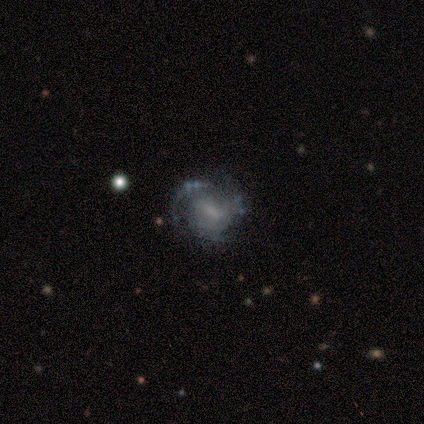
Smooth or featured: featured or disk — 100%
Edge-on disk: no — 100%
Bar: no — 80% (strong — 20%)
Spiral arms: yes — 60% (no — 40%)
Spiral winding: medium — 100%
Spiral arm count: can't tell — 67% (3 — 33%)
Bulge size: moderate — 40% (tied with none — 40%)
Merging: none — 80% (major disturbance — 20%)